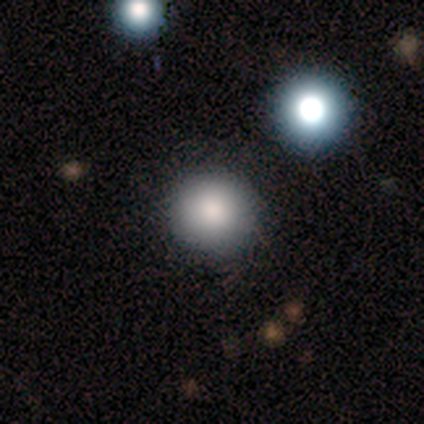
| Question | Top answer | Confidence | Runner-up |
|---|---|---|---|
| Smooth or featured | smooth | 60% | star or artifact (40%) |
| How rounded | round | 100% | — |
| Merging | none | 33% | tied: minor disturbance (33%), major disturbance (33%) |